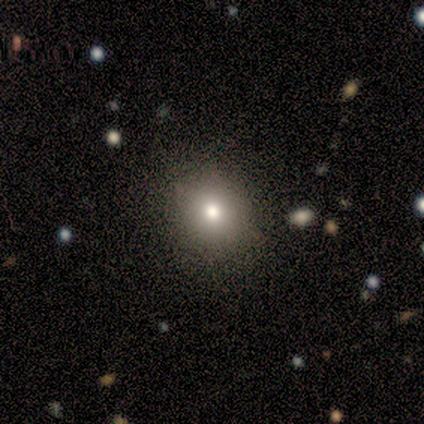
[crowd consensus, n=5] Smooth or featured: smooth — 60% (featured or disk — 20%)
How rounded: round — 67% (in between — 33%)
Merging: none — 100%